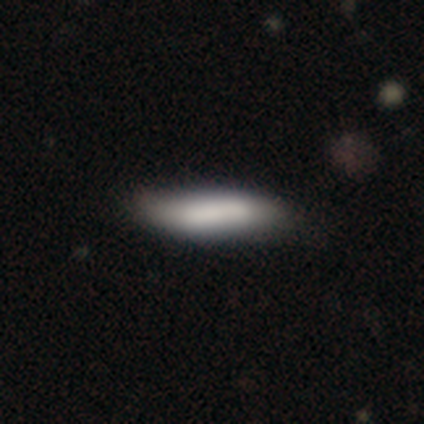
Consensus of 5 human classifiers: A smooth galaxy with no disk features (80%) that is cigar-shaped (100%). Merging: none (80%).